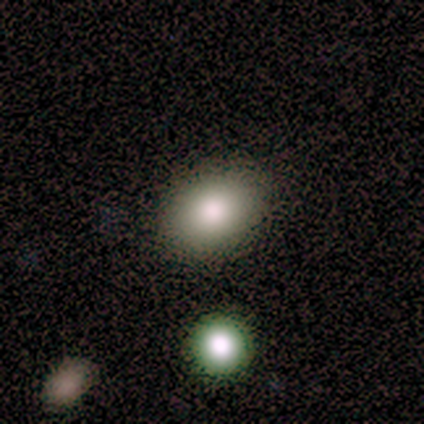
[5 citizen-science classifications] Volunteers were most divided on "how rounded": in between: 60%, round: 40%, cigar-shaped: 0%. More confident: smooth or featured — smooth (100%); merging — none (100%).